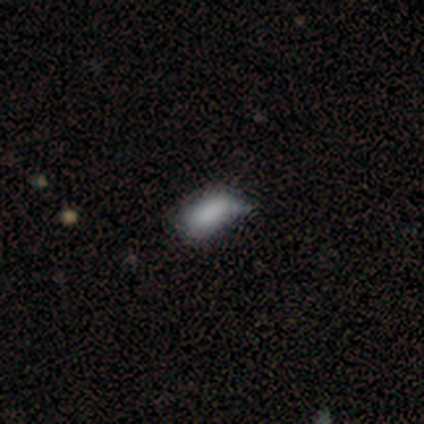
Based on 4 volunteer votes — Smooth or featured? smooth (100%)
How rounded? in between (100%)
Merging? minor disturbance (50%)